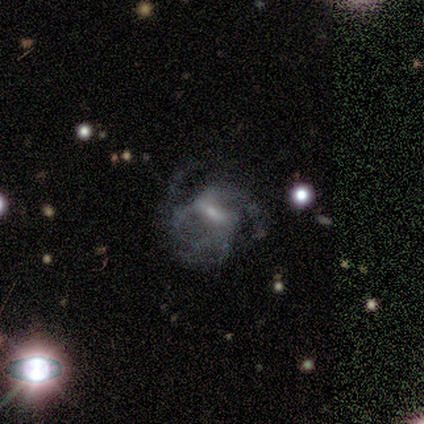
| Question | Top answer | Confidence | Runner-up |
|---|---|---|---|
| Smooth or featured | featured or disk | 100% | — |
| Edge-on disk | no | 100% | — |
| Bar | weak | 80% | strong (20%) |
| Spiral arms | yes | 80% | no (20%) |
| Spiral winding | loose | 50% | tight (25%) |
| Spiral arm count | can't tell | 50% | 2 (25%) |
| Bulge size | small | 40% | tied: none (40%) |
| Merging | none | 40% | tied: minor disturbance (40%) |